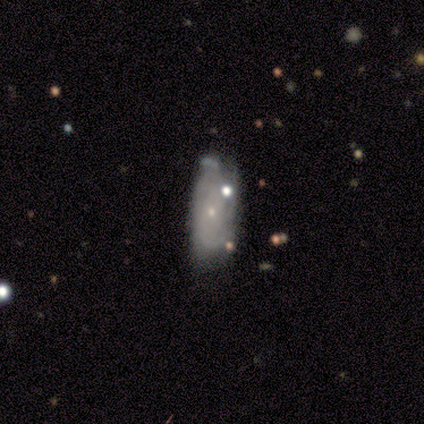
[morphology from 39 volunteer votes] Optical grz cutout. It shows a featured or disk galaxy (62%) with no bar (100%), no spiral arms (67%) and a small central bulge (100%). Merging: minor disturbance (46%).